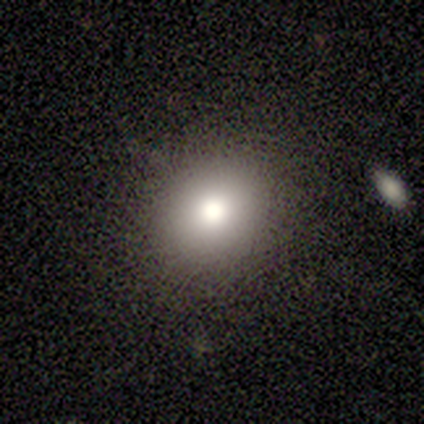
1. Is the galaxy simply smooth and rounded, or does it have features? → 80% smooth, 20% featured or disk, 0% star or artifact.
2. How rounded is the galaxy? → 75% round, 25% in between, 0% cigar-shaped.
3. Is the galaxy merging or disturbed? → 100% none, 0% minor disturbance, 0% major disturbance, 0% merger.